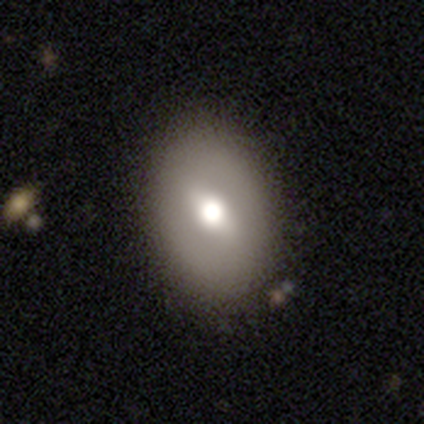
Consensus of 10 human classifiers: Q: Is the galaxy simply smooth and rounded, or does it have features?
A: smooth — 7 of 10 (70%).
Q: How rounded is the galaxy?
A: in between — 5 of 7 (71%).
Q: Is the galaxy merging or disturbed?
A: none — 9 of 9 (100%).